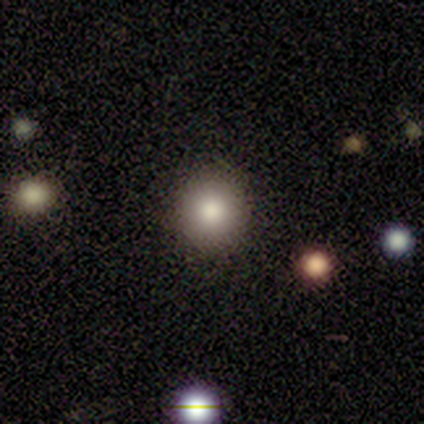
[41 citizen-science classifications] Smooth or featured? 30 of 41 (73%) said smooth. How rounded? 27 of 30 (90%) said round. Merging? 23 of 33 (70%) said none.